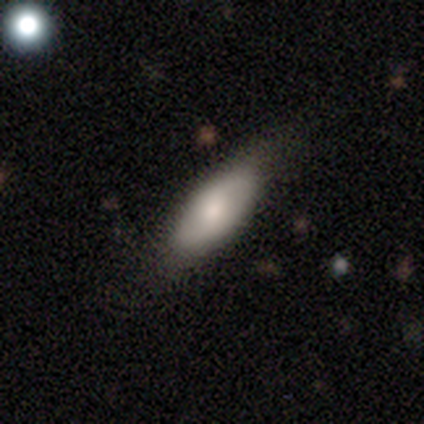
smooth-or-featured: smooth: 68% | featured or disk: 25% | star or artifact: 8%
  how-rounded: in between: 85% | cigar-shaped: 11% | round: 4%
  merging: none: 73% | minor disturbance: 16% | major disturbance: 8% | merger: 3%